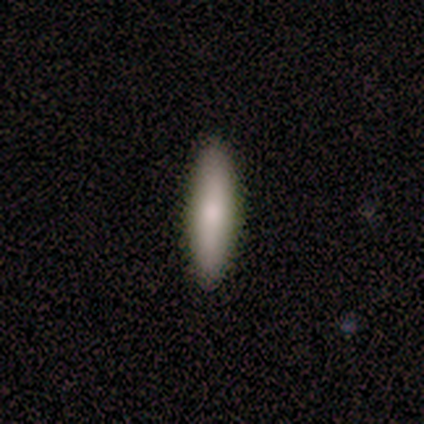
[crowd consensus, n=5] This appears to be a smooth galaxy with no disk features (80%) that is in between round and cigar-shaped (50%, tied with cigar-shaped). Merging: none (100%).